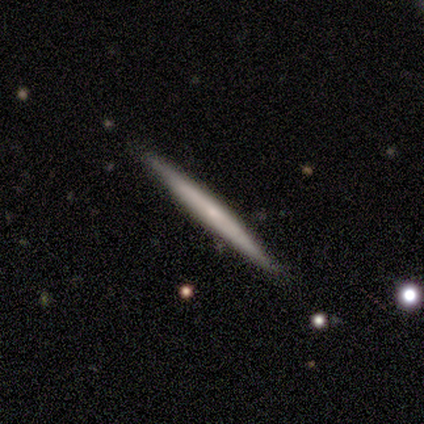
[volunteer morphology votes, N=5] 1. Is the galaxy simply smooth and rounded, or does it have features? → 60% smooth, 40% featured or disk, 0% star or artifact.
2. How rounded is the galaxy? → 100% cigar-shaped, 0% round, 0% in between.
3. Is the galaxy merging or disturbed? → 100% none, 0% minor disturbance, 0% major disturbance, 0% merger.